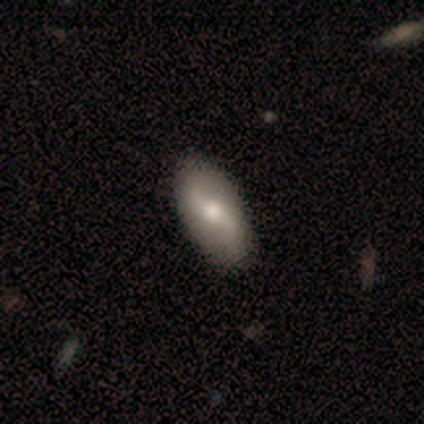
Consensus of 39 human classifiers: Smooth or featured?
  - featured or disk: 59% *
  - smooth: 36%
  - star or artifact: 5%
Edge-on disk?
  - no: 87% *
  - yes: 13%
Bar?
  - weak: 40% *
  - strong: 30%
  - no: 30%
Spiral arms?
  - yes: 75% *
  - no: 25%
Spiral winding?
  - loose: 80% *
  - tight: 20%
  - medium: 0%
Spiral arm count?
  - 2: 100% *
  - 1: 0%
  - 3: 0%
  - 4: 0%
  - more than 4: 0%
  - can't tell: 0%
Bulge size?
  - moderate: 60% *
  - small: 20%
  - large: 10%
  - dominant: 5%
  - none: 5%
Merging?
  - none: 86% *
  - minor disturbance: 8%
  - major disturbance: 3%
  - merger: 3%